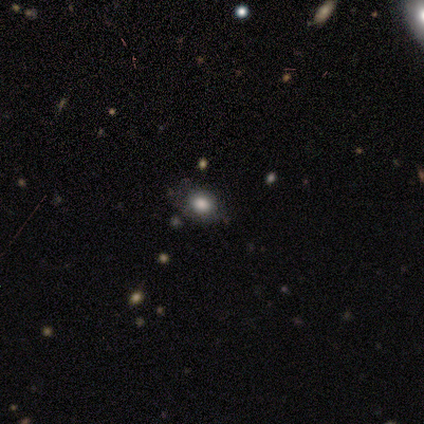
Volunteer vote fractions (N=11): smooth-or-featured: smooth: 91% | star or artifact: 9% | featured or disk: 0%
  how-rounded: round: 60% | in between: 40% | cigar-shaped: 0%
  merging: none: 80% | minor disturbance: 20% | major disturbance: 0% | merger: 0%